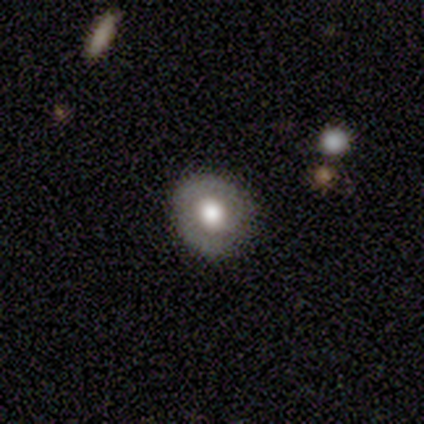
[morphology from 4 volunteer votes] Overall: smooth (75%). How rounded: round (67%; in between 33%). Merging: none (75%).